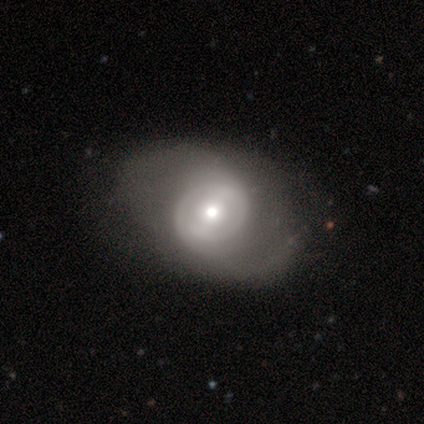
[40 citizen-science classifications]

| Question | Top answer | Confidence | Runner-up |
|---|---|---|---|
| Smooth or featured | featured or disk | 78% | smooth (20%) |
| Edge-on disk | no | 100% | — |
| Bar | weak | 55% | no (39%) |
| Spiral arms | yes | 71% | no (29%) |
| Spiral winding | tight | 36% | tied: medium (36%) |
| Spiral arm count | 2 | 73% | can't tell (18%) |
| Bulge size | moderate | 74% | small (16%) |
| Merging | none | 31% | minor disturbance (18%) |